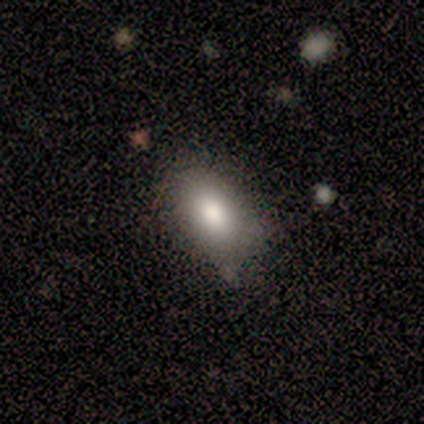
Overall: smooth (100%). How rounded: in between (100%). Merging: none (80%).